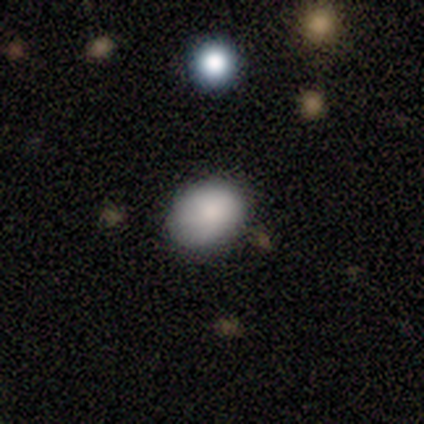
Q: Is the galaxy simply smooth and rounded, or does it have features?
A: smooth — 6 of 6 (100%).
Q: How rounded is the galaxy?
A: in between — 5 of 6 (83%).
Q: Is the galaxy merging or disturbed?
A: none — 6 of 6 (100%).